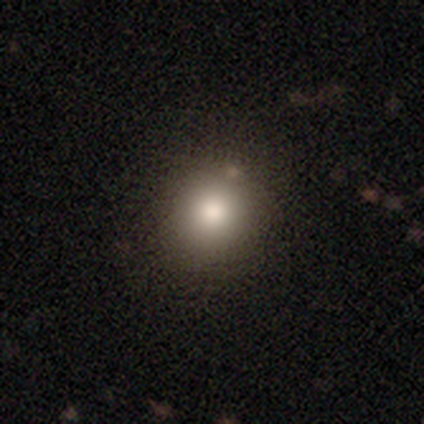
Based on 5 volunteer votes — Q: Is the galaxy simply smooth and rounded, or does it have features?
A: smooth — 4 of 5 (80%).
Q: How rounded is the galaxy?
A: round — 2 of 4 (50%, tied with in between).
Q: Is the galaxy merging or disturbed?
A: none — 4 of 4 (100%).